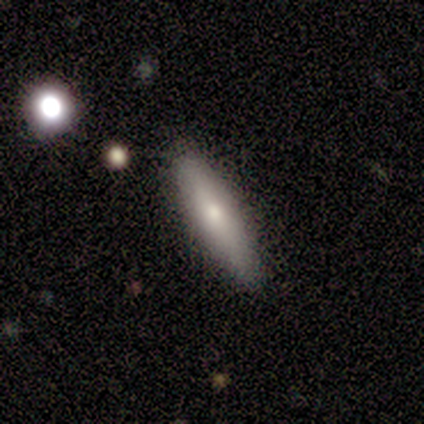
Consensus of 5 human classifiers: Smooth or featured? smooth (80%)
How rounded? in between (50%, tied with cigar-shaped)
Merging? none (100%)